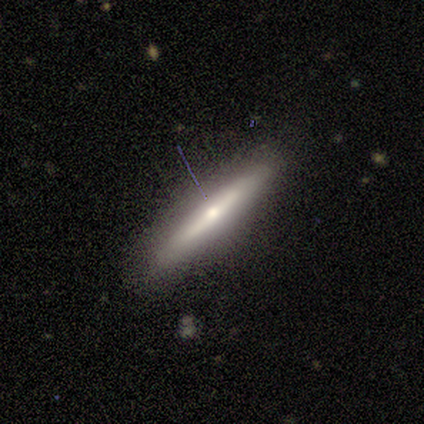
Overall: featured or disk (68%). Edge-on disk: yes (90%). Edge-on bulge: rounded (81%). Merging: none (82%).